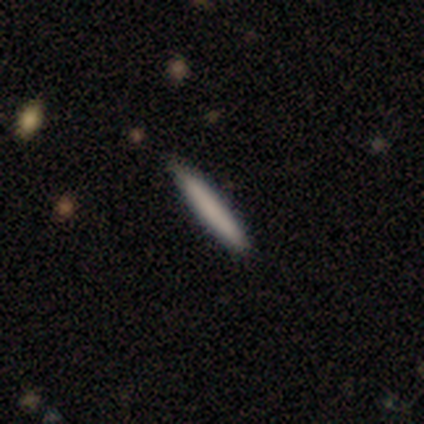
Overall: smooth (100%). How rounded: cigar-shaped (100%). Merging: none (100%).